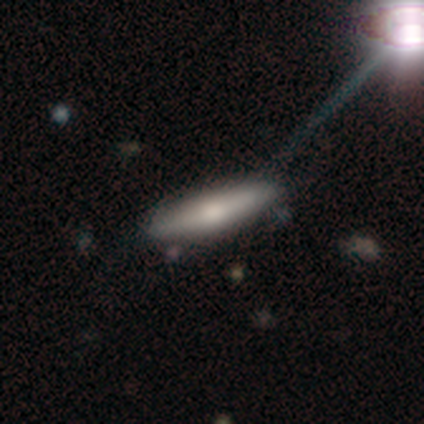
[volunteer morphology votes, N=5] Q: Smooth or featured?
A: smooth (60%); runner-up: featured or disk (20%)
Q: How rounded?
A: cigar-shaped (100%)
Q: Merging?
A: none (75%); runner-up: minor disturbance (25%)